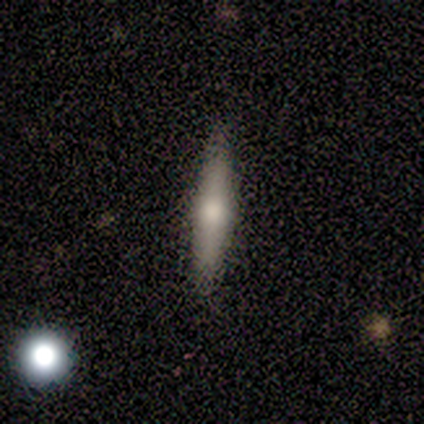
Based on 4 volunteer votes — smooth 50% (tied), featured or disk 50% (tied), star or artifact 0%. Down the decision tree: how rounded — cigar-shaped (100%); merging — none (100%).